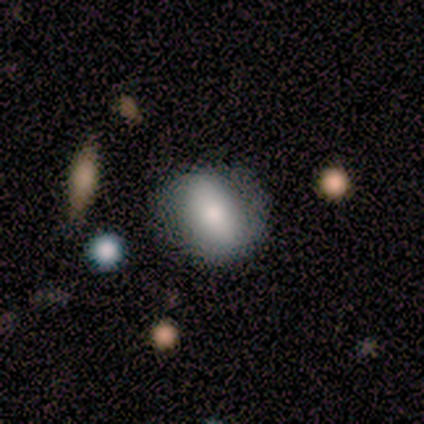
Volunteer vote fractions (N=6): Smooth or featured?
  - featured or disk: 67% *
  - smooth: 33%
  - star or artifact: 0%
Edge-on disk?
  - no: 75% *
  - yes: 25%
Bar?
  - strong: 67% *
  - no: 33%
  - weak: 0%
Spiral arms?
  - no: 67% *
  - yes: 33%
Bulge size?
  - moderate: 67% *
  - dominant: 33%
  - large: 0%
  - small: 0%
  - none: 0%
Merging?
  - none: 83% *
  - minor disturbance: 17%
  - major disturbance: 0%
  - merger: 0%